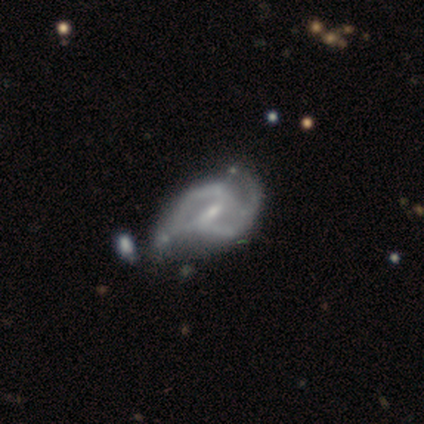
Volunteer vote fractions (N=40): Smooth or featured? 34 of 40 (85%) said featured or disk. Edge-on disk? 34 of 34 (100%) said no. Bar? 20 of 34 (59%) said weak. Spiral arms? 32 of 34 (94%) said yes. Spiral winding? 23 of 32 (72%) said medium. Spiral arm count? 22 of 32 (69%) said 2. Bulge size? 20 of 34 (59%) said small. Merging? 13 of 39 (33%) said minor disturbance.